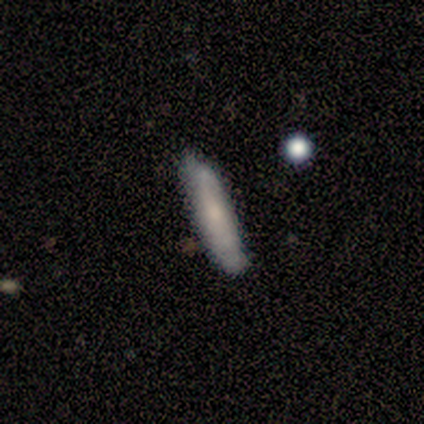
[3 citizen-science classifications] A smooth galaxy with no disk features (100%) that is cigar-shaped (100%). Merging: none (67%).